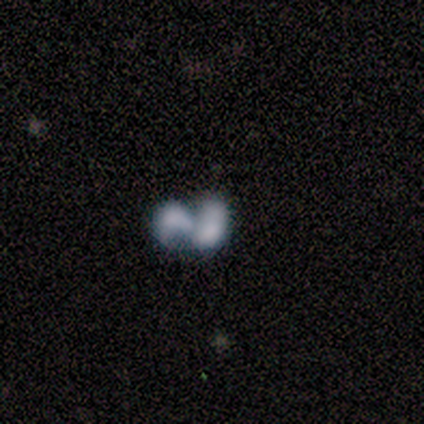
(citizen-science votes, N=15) A featured or disk galaxy (60%) with no bar (56%), no spiral arms (56%) and no central bulge (67%). Merging: merger (92%).